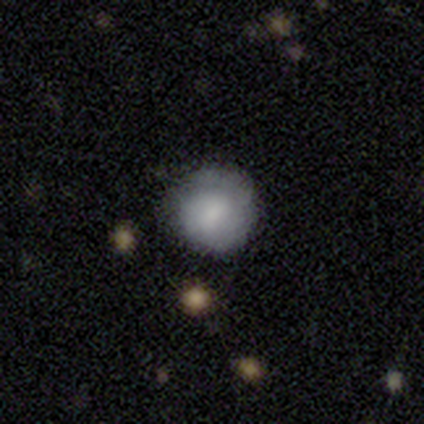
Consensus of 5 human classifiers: Volunteers were most divided on "how rounded": round: 75%, in between: 25%, cigar-shaped: 0%. More confident: smooth or featured — smooth (80%); merging — none (80%).